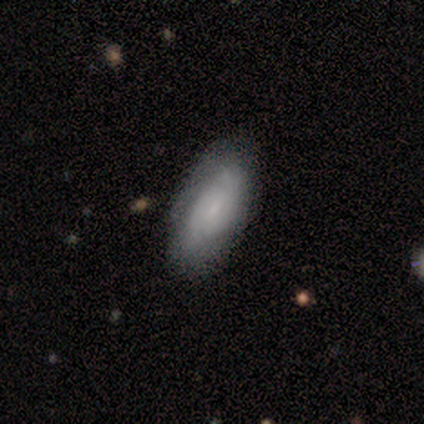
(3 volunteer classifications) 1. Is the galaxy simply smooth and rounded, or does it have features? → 67% smooth, 33% featured or disk, 0% star or artifact.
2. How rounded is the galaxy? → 100% in between, 0% round, 0% cigar-shaped.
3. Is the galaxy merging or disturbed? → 33% none (tied), 33% minor disturbance (tied), 33% major disturbance (tied), 0% merger.